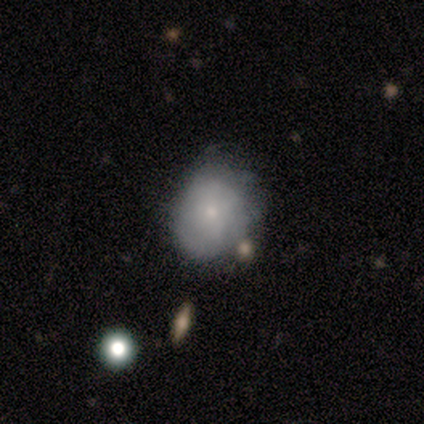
Volunteers were most divided on "merging": minor disturbance: 60%, none: 40%, major disturbance: 0%, merger: 0%. More confident: smooth or featured — smooth (80%); how rounded — round (50%).